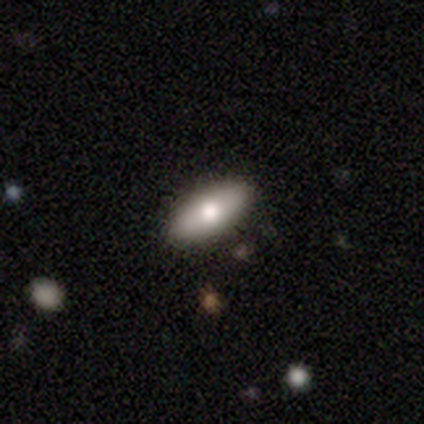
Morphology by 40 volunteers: A smooth galaxy with no disk features (75%) that is in between round and cigar-shaped (73%). Merging: none (87%).